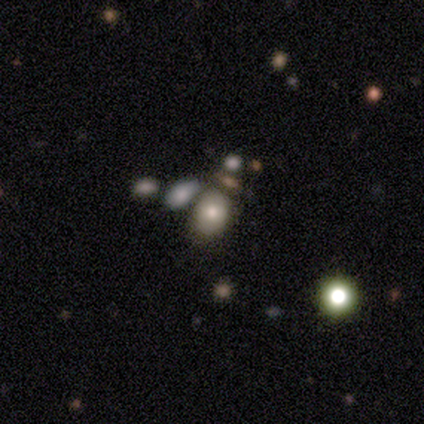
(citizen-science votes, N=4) smooth 50%, featured or disk 25%, star or artifact 25%. Down the decision tree: how rounded — round (50%, tied with in between); merging — none (33%, tied with major disturbance and merger).